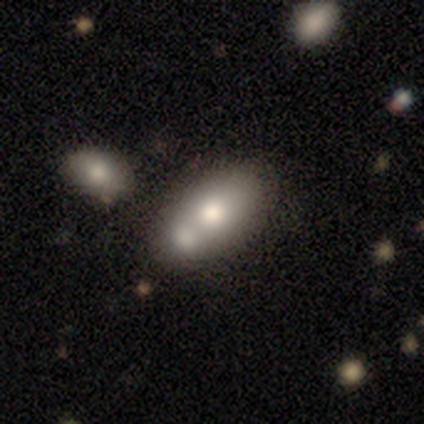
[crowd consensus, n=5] A smooth galaxy with no disk features (80%) that is round (50%, tied with in between). Merging: merger (100%).